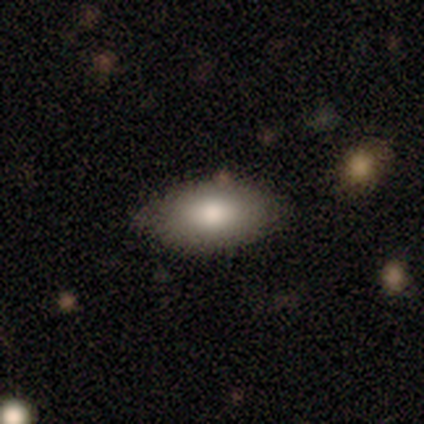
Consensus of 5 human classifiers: Smooth or featured: smooth — 100%
How rounded: in between — 100%
Merging: none — 80% (minor disturbance — 20%)